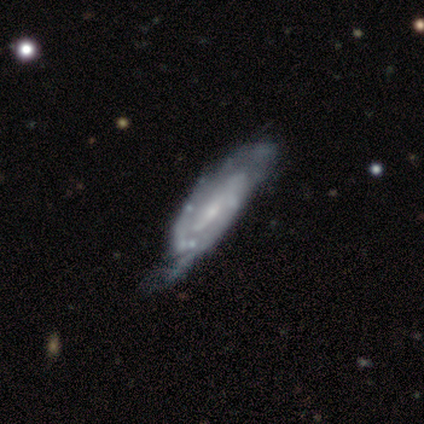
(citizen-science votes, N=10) This appears to be a featured or disk galaxy (70%) with a weak bar (50%, tied with no), 2 (75%) tight (50%) spiral arms (100%) and a small central bulge (75%). Merging: minor disturbance (56%).